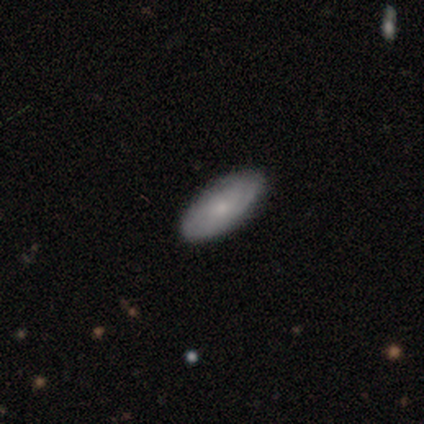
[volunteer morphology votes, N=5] A smooth galaxy with no disk features (40%, tied with featured or disk) that is in between round and cigar-shaped (100%). Merging: none (100%).